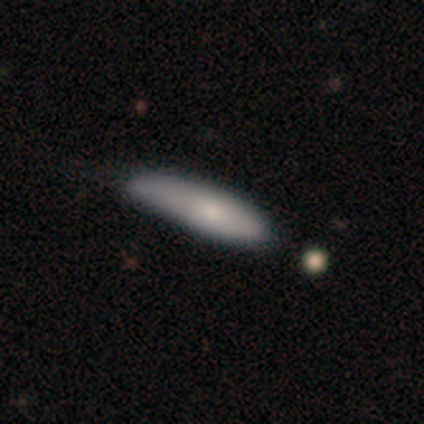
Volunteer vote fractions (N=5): Smooth or featured: smooth — 100%
How rounded: cigar-shaped — 100%
Merging: none — 60% (minor disturbance — 40%)